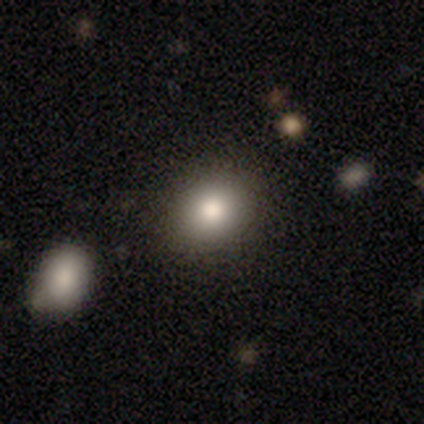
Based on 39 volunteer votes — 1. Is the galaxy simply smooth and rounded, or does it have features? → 85% smooth, 10% featured or disk, 5% star or artifact.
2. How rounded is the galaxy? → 58% round, 42% in between, 0% cigar-shaped.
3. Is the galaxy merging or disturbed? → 86% none, 8% minor disturbance, 3% major disturbance, 3% merger.